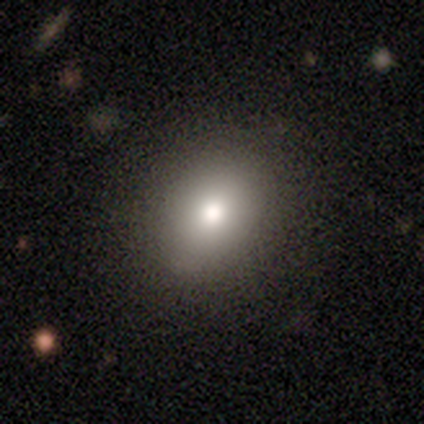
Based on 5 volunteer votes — A smooth galaxy with no disk features (60%) that is in between round and cigar-shaped (67%).

Vote fractions:
- Smooth or featured? smooth: 60% / featured or disk: 40% / star or artifact: 0%
- How rounded? in between: 67% / round: 33% / cigar-shaped: 0%
- Merging? none: 100% / minor disturbance: 0% / major disturbance: 0% / merger: 0%